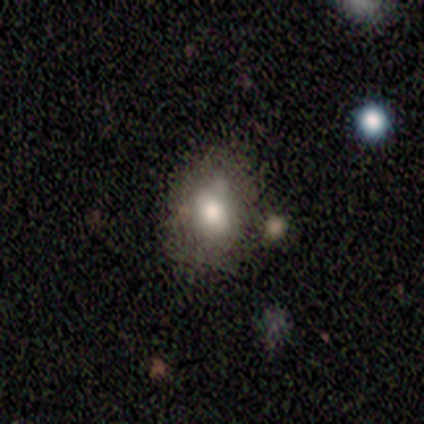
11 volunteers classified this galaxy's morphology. Q: Smooth or featured?
A: smooth (82%); runner-up: featured or disk (9%)
Q: How rounded?
A: in between (78%); runner-up: round (22%)
Q: Merging?
A: none (70%); runner-up: minor disturbance (30%)